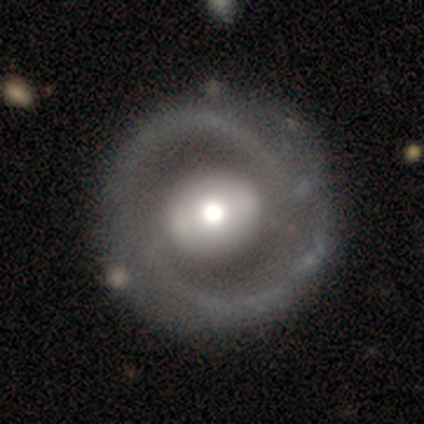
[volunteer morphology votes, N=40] Smooth or featured? featured or disk (88%)
Edge-on disk? no (97%)
Bar? no (41%)
Spiral arms? yes (71%)
Spiral winding? medium (58%)
Spiral arm count? 2 (83%)
Bulge size? moderate (53%)
Merging? none (80%)